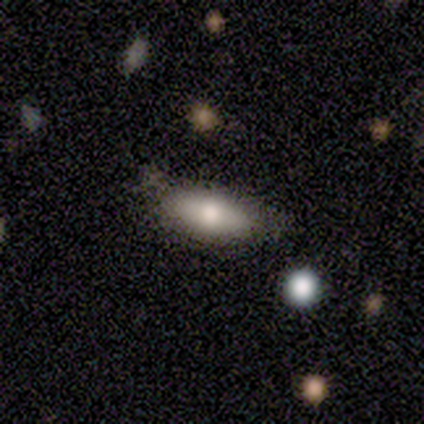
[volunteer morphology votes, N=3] A smooth galaxy with no disk features (100%) that is in between round and cigar-shaped (100%).

Vote fractions:
- Smooth or featured? smooth: 100% / featured or disk: 0% / star or artifact: 0%
- How rounded? in between: 100% / round: 0% / cigar-shaped: 0%
- Merging? minor disturbance: 100% / none: 0% / major disturbance: 0% / merger: 0%